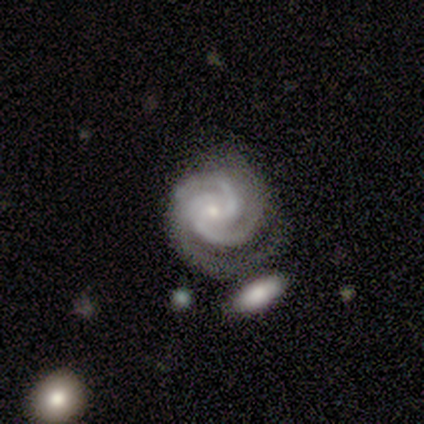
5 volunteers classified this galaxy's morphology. Q: Smooth or featured?
A: featured or disk (100%)
Q: Edge-on disk?
A: no (100%)
Q: Bar?
A: strong (60%); runner-up: weak (40%)
Q: Spiral arms?
A: yes (100%)
Q: Spiral winding?
A: tight (60%); runner-up: medium (20%)
Q: Spiral arm count?
A: 3 (80%); runner-up: 4 (20%)
Q: Bulge size?
A: small (80%); runner-up: moderate (20%)
Q: Merging?
A: none (60%); runner-up: minor disturbance (40%)